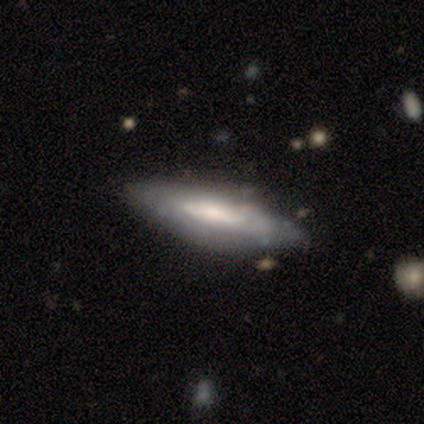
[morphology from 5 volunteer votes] smooth-or-featured: smooth: 60% | featured or disk: 40% | star or artifact: 0%
  how-rounded: cigar-shaped: 100% | round: 0% | in between: 0%
  merging: none: 80% | minor disturbance: 20% | major disturbance: 0% | merger: 0%